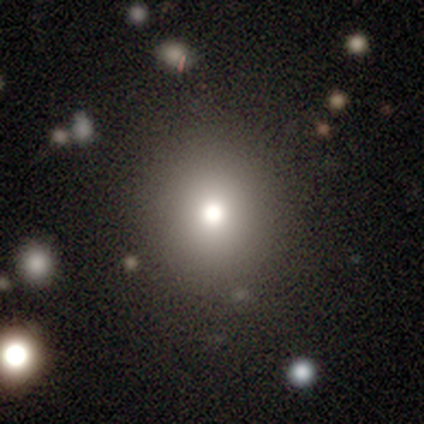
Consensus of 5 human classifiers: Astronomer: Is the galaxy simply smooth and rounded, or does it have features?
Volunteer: smooth — 60%.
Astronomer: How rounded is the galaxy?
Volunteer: round — 67%.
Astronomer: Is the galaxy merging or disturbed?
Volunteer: none — 75%.